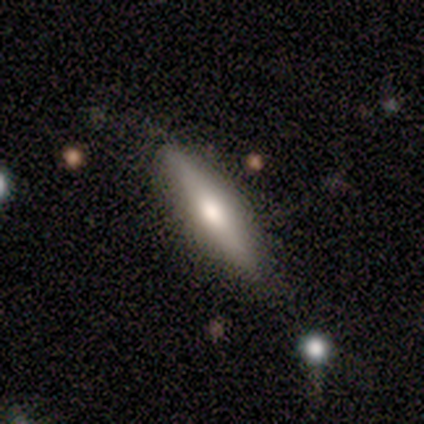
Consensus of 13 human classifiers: Smooth or featured? 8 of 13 (62%) said smooth. How rounded? 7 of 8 (88%) said cigar-shaped. Merging? 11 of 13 (85%) said none.